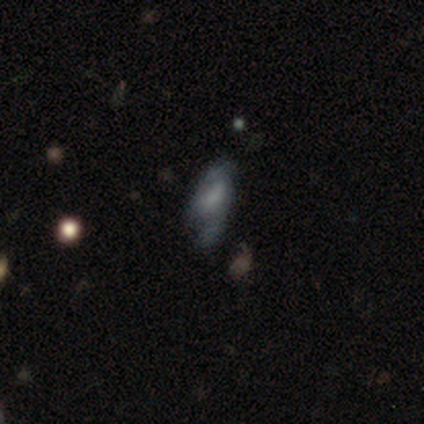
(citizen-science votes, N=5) Smooth or featured?
  - smooth: 40% * (tied)
  - featured or disk: 40% * (tied)
  - star or artifact: 20%
How rounded?
  - in between: 100% *
  - round: 0%
  - cigar-shaped: 0%
Merging?
  - none: 50% *
  - minor disturbance: 25%
  - major disturbance: 25%
  - merger: 0%